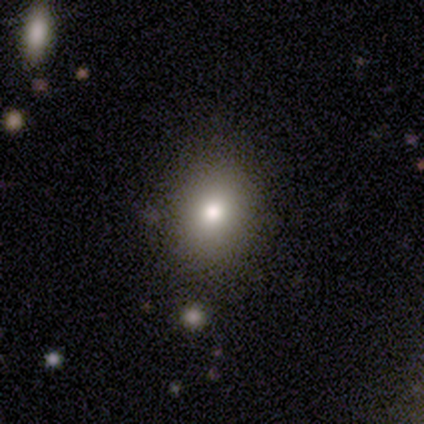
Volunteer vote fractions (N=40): Overall: smooth (78%). How rounded: round (58%; in between 42%). Merging: none (89%).